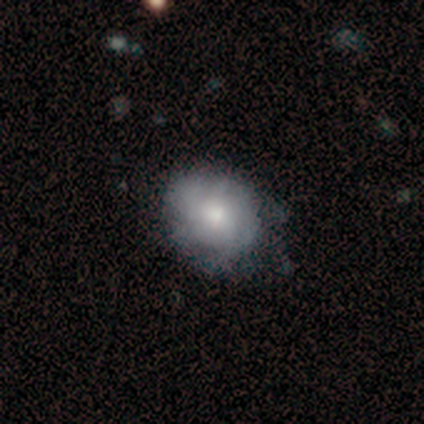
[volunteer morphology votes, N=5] Q: Smooth or featured?
A: featured or disk (60%); runner-up: smooth (40%)
Q: Edge-on disk?
A: no (100%)
Q: Bar?
A: no (67%); runner-up: strong (33%)
Q: Spiral arms?
A: yes (100%)
Q: Spiral winding?
A: tight (67%); runner-up: medium (33%)
Q: Spiral arm count?
A: 3 (33%); tied with: 4 (33%); can't tell (33%)
Q: Bulge size?
A: moderate (67%); runner-up: small (33%)
Q: Merging?
A: minor disturbance (60%); runner-up: none (40%)